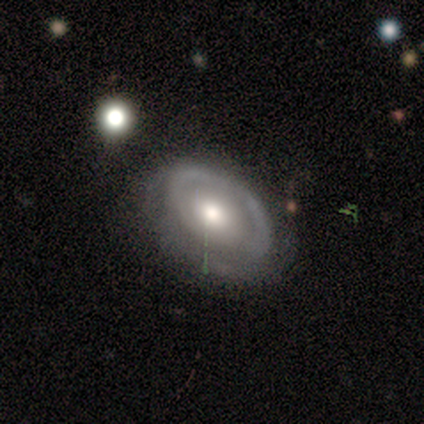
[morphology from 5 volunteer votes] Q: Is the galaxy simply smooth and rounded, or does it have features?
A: featured or disk — 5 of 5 (100%).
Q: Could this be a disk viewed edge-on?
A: no — 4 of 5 (80%).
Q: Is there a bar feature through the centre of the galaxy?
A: no — 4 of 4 (100%).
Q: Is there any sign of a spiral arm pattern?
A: yes — 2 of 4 (50%, tied with no).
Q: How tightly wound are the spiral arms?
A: medium — 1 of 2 (50%, tied with loose).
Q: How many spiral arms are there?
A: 2 — 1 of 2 (50%, tied with can't tell).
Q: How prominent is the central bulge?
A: moderate — 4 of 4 (100%).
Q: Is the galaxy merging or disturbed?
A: none — 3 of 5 (60%).